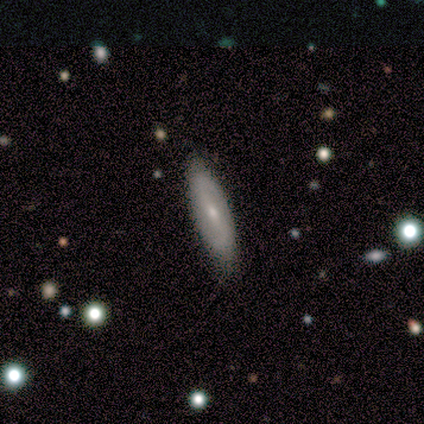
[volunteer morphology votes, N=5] Smooth or featured?
  - featured or disk: 60% *
  - smooth: 40%
  - star or artifact: 0%
Edge-on disk?
  - no: 67% *
  - yes: 33%
Bar?
  - strong: 50% * (tied)
  - no: 50% * (tied)
  - weak: 0%
Spiral arms?
  - yes: 50% * (tied)
  - no: 50% * (tied)
Spiral winding?
  - tight: 100% *
  - medium: 0%
  - loose: 0%
Spiral arm count?
  - can't tell: 100% *
  - 1: 0%
  - 2: 0%
  - 3: 0%
  - 4: 0%
  - more than 4: 0%
Bulge size?
  - moderate: 100% *
  - dominant: 0%
  - large: 0%
  - small: 0%
  - none: 0%
Merging?
  - none: 100% *
  - minor disturbance: 0%
  - major disturbance: 0%
  - merger: 0%